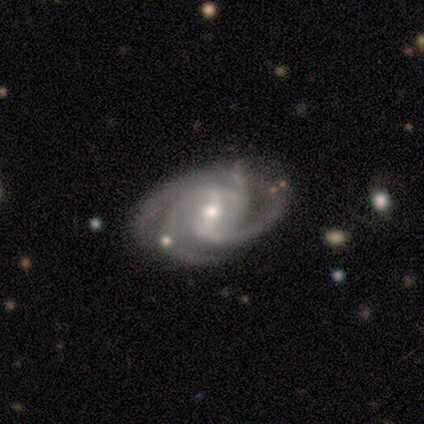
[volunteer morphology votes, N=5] type=featured or disk (80%); edge-on=no (100%); bar=weak (50%); spiral arms=yes (100%); winding=medium (75%); arm count=3 (50%); bulge=moderate (75%); merging=none (50%, tied with minor disturbance).